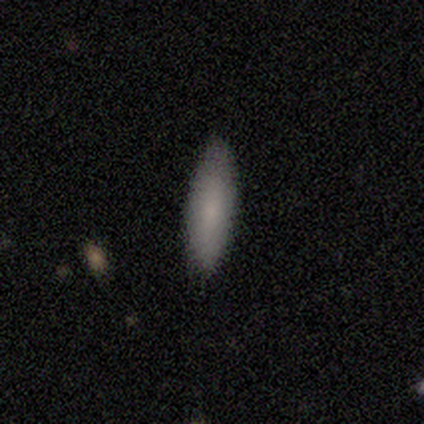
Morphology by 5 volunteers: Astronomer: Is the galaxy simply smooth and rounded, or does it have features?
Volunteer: smooth — 80%.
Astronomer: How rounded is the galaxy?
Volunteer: cigar-shaped — 75%.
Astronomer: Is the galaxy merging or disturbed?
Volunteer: none — 100%.